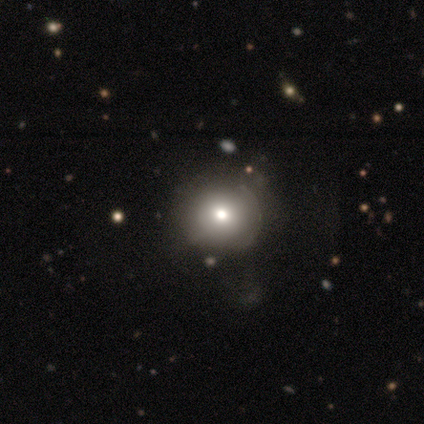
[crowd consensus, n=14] Smooth or featured? smooth (93%)
How rounded? round (100%)
Merging? none (69%)